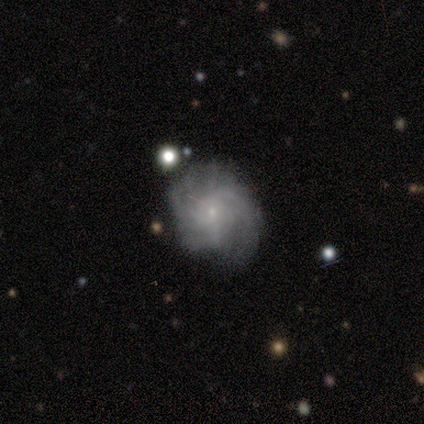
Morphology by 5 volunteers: Smooth or featured? featured or disk (100%)
Edge-on disk? no (100%)
Bar? no (60%)
Spiral arms? yes (100%)
Spiral winding? medium (60%)
Spiral arm count? 3 (40%)
Bulge size? small (100%)
Merging? none (80%)